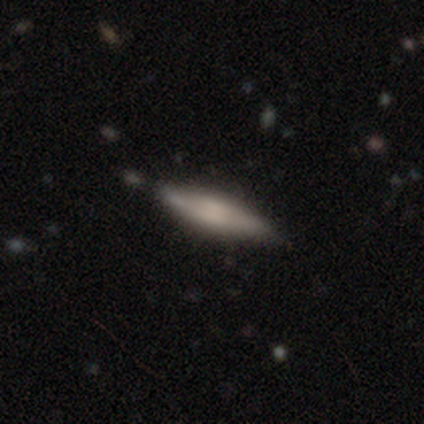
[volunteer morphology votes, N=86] This appears to be a smooth galaxy with no disk features (52%) that is cigar-shaped (71%). Merging: none (86%).